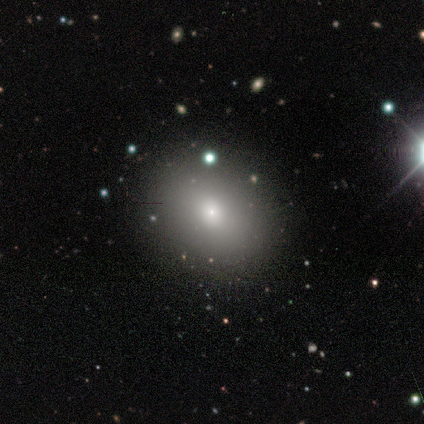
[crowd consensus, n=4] Smooth or featured? smooth (75%)
How rounded? in between (67%)
Merging? none (50%)